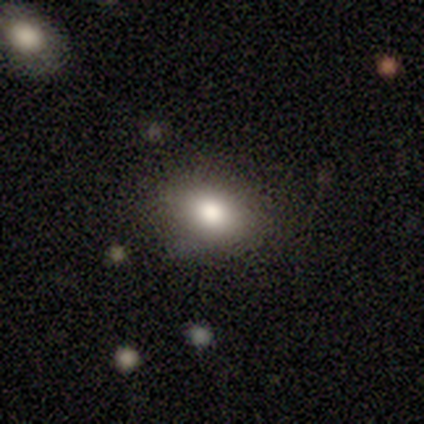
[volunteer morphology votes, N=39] Q: Smooth or featured?
A: smooth (82%); runner-up: star or artifact (10%)
Q: How rounded?
A: in between (91%); runner-up: round (9%)
Q: Merging?
A: none (74%); runner-up: minor disturbance (20%)